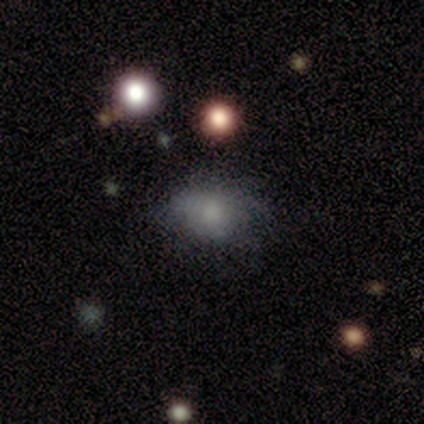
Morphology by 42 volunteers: A smooth galaxy with no disk features (64%) that is in between round and cigar-shaped (67%).

Vote fractions:
- Smooth or featured? smooth: 64% / featured or disk: 24% / star or artifact: 12%
- How rounded? in between: 67% / round: 33% / cigar-shaped: 0%
- Merging? none: 57% / minor disturbance: 32% / major disturbance: 11% / merger: 0%